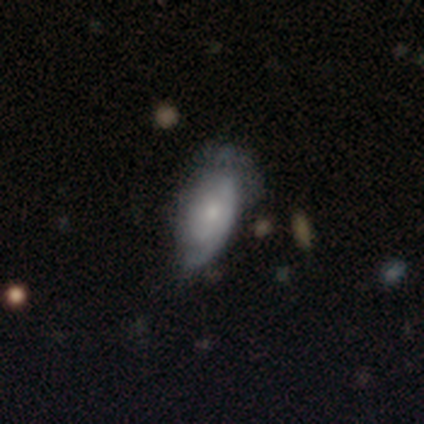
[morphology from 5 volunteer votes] This appears to be a featured or disk galaxy (80%) with no bar (100%), tight (100%) spiral arms (100%) and a small central bulge (75%). Merging: none (100%).